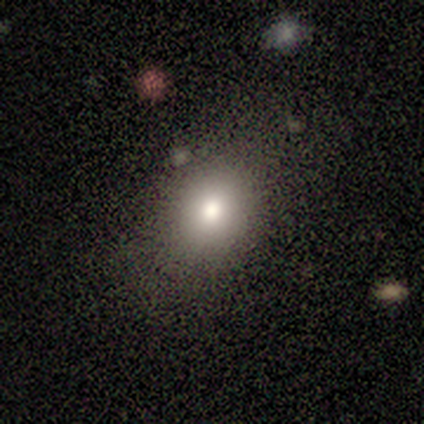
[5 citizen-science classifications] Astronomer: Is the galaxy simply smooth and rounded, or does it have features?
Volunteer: smooth — 80%.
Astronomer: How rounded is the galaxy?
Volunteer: round — 100%.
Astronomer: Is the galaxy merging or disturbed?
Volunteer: none — 80%.